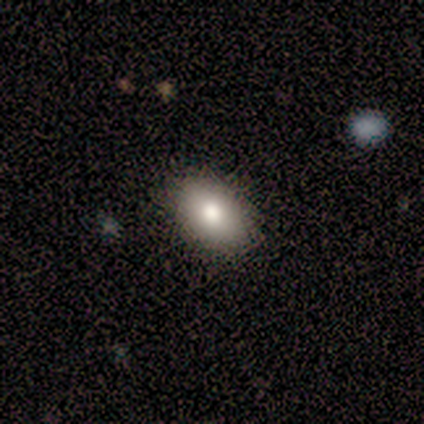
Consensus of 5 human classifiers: A smooth galaxy with no disk features (80%) that is in between round and cigar-shaped (100%). Merging: none (50%, tied with minor disturbance).